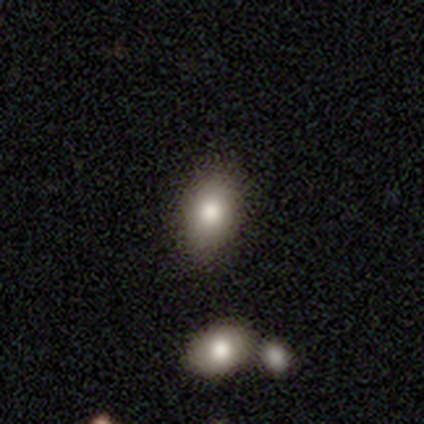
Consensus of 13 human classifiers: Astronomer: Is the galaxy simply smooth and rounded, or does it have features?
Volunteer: smooth — 92%.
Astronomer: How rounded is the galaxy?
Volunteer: in between — 83%.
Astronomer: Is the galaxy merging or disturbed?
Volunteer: none — 75%.